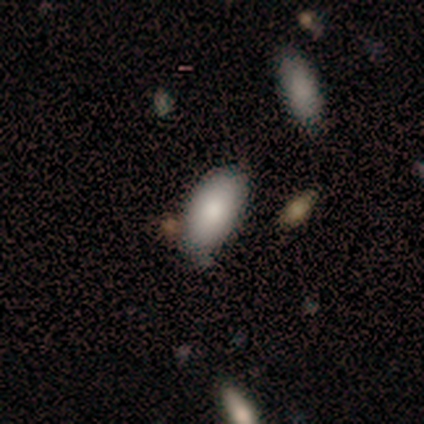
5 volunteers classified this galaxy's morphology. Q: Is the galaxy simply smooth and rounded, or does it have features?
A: smooth — 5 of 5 (100%).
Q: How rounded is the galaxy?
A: in between — 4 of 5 (80%).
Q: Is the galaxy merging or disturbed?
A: none — 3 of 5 (60%).